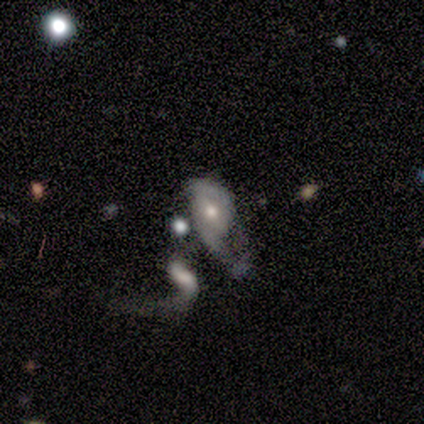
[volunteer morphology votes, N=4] smooth-or-featured: featured or disk: 75% | smooth: 25% | star or artifact: 0%
  disk-edge-on: no: 100% | yes: 0%
    bar: strong: 33% (tied) | weak: 33% (tied) | no: 33% (tied)
    has-spiral-arms: yes: 100% | no: 0%
      spiral-winding: tight: 67% | medium: 33% | loose: 0%
      spiral-arm-count: 2: 67% | 3: 33% | 1: 0% | 4: 0% | more than 4: 0% | can't tell: 0%
    bulge-size: moderate: 67% | none: 33% | dominant: 0% | large: 0% | small: 0%
  merging: none: 50% | major disturbance: 25% | merger: 25% | minor disturbance: 0%